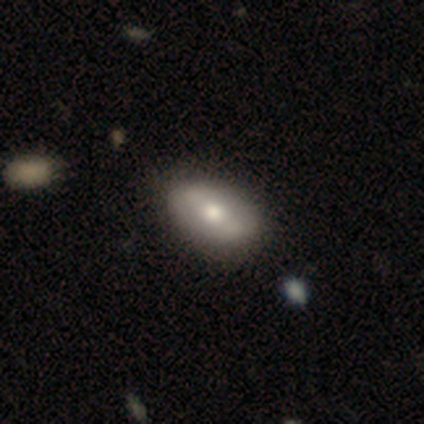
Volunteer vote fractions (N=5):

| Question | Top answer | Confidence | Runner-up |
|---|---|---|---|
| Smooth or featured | featured or disk | 60% | smooth (40%) |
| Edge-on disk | no | 67% | yes (33%) |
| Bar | strong | 50% | tied: no (50%) |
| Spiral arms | yes | 100% | — |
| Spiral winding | medium | 50% | tied: loose (50%) |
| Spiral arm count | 2 | 100% | — |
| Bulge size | moderate | 100% | — |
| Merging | none | 100% | — |